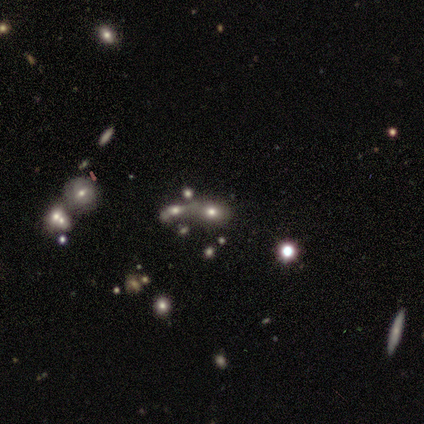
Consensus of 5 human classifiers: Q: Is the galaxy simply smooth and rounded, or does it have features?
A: smooth — 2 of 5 (40%, tied with star or artifact).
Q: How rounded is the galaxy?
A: in between — 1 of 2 (50%, tied with cigar-shaped).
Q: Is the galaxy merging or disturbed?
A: merger — 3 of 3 (100%).